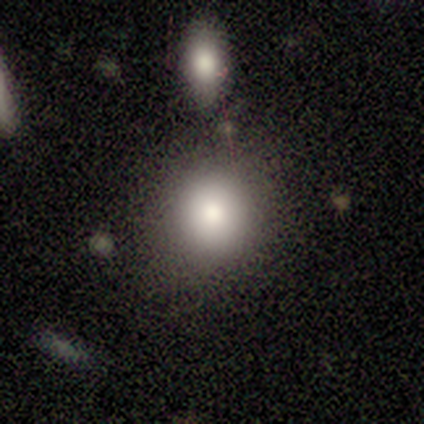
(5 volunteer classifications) Q: Smooth or featured?
A: smooth (80%); runner-up: featured or disk (20%)
Q: How rounded?
A: round (50%); tied with: in between (50%)
Q: Merging?
A: none (60%); runner-up: minor disturbance (20%)